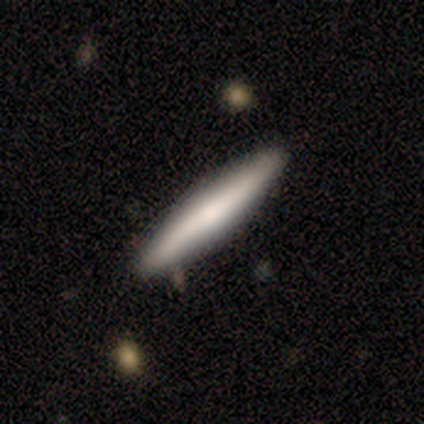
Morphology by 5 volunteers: Smooth or featured? 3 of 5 (60%) said smooth. How rounded? 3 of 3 (100%) said cigar-shaped. Merging? 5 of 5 (100%) said none.